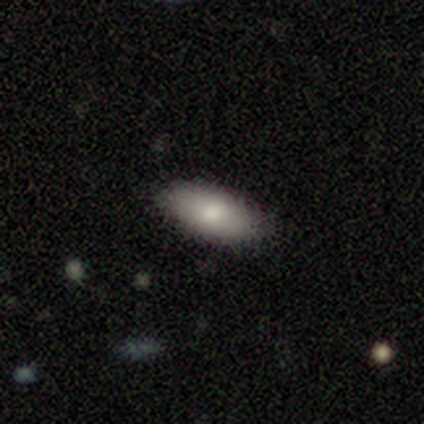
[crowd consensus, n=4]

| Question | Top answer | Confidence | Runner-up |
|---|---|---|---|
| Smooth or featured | smooth | 100% | — |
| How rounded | in between | 100% | — |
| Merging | none | 100% | — |